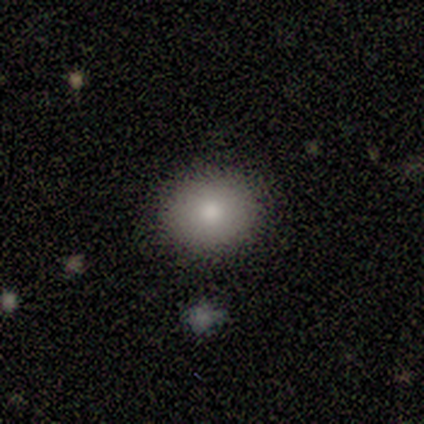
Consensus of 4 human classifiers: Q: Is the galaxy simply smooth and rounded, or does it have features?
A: smooth — 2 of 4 (50%).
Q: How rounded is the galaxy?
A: round — 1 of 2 (50%, tied with in between).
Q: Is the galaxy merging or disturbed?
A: none — 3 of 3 (100%).